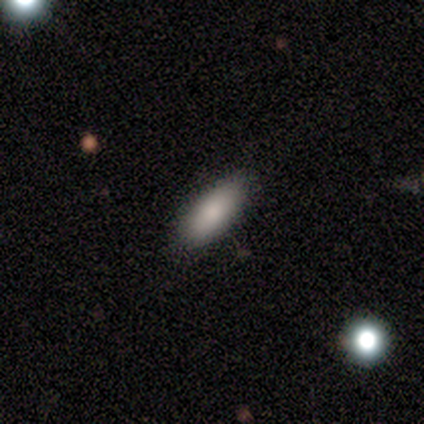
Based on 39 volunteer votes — Smooth or featured? 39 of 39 (100%) said smooth. How rounded? 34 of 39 (87%) said in between. Merging? 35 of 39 (90%) said none.